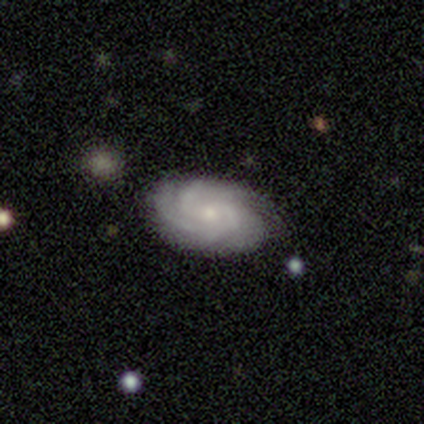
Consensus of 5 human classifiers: A featured or disk galaxy (100%) with no bar (80%), tight (60%) spiral arms (100%) and a small central bulge (60%).

Vote fractions:
- Smooth or featured? featured or disk: 100% / smooth: 0% / star or artifact: 0%
- Edge-on disk? no: 100% / yes: 0%
- Bar? no: 80% / weak: 20% / strong: 0%
- Spiral arms? yes: 100% / no: 0%
- Spiral winding? tight: 60% / medium: 20% / loose: 20%
- Spiral arm count? can't tell: 60% / 2: 20% / 3: 20% / 1: 0% / 4: 0% / more than 4: 0%
- Bulge size? small: 60% / moderate: 40% / dominant: 0% / large: 0% / none: 0%
- Merging? none: 40% (tied) / minor disturbance: 40% (tied) / merger: 20% / major disturbance: 0%